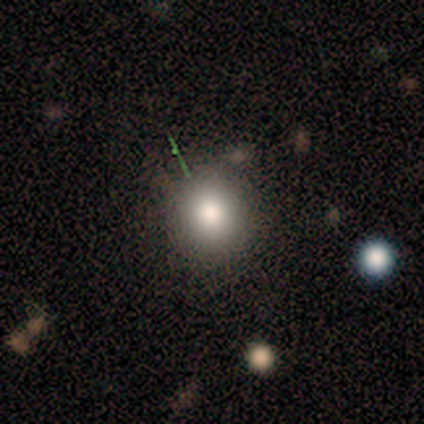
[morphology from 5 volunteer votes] Overall: smooth (60%; featured or disk 20%). How rounded: round (100%). Merging: none (75%).